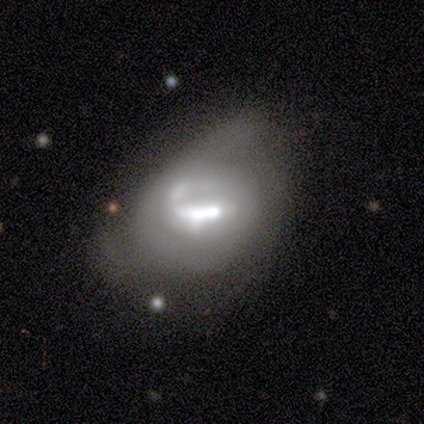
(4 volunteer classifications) Q: Smooth or featured?
A: featured or disk (50%); runner-up: smooth (25%)
Q: Edge-on disk?
A: no (100%)
Q: Bar?
A: strong (50%); tied with: weak (50%)
Q: Spiral arms?
A: yes (50%); tied with: no (50%)
Q: Spiral winding?
A: loose (100%)
Q: Spiral arm count?
A: 1 (100%)
Q: Bulge size?
A: moderate (100%)
Q: Merging?
A: none (33%); tied with: minor disturbance (33%); major disturbance (33%)